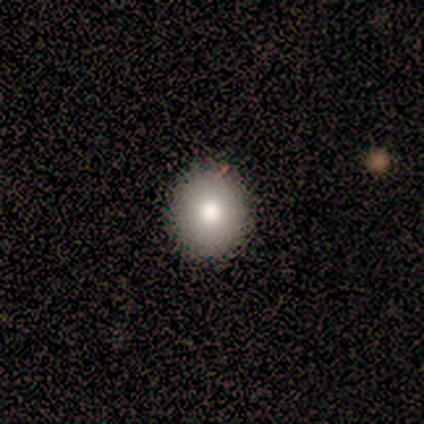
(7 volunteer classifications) This appears to be a smooth galaxy with no disk features (71%) that is round (80%). Merging: none (100%).